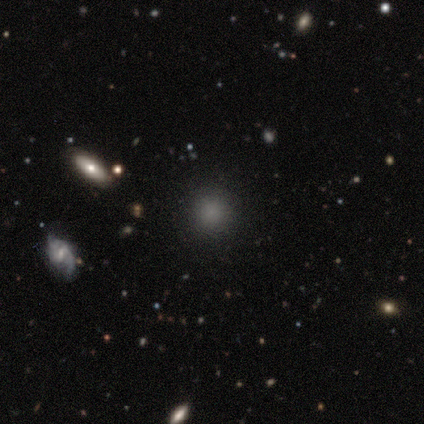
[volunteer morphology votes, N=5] Q: Smooth or featured?
A: smooth (60%); runner-up: featured or disk (20%)
Q: How rounded?
A: round (100%)
Q: Merging?
A: none (100%)